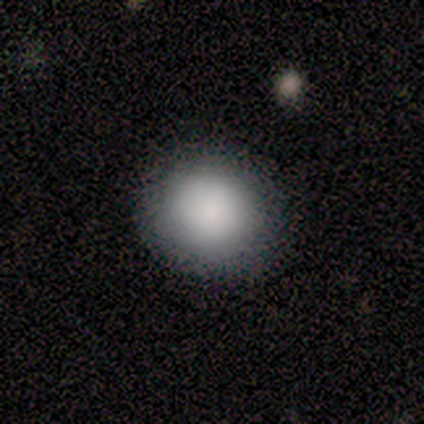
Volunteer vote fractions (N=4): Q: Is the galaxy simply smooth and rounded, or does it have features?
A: smooth — 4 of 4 (100%).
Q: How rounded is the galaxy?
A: round — 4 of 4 (100%).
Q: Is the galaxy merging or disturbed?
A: none — 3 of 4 (75%).